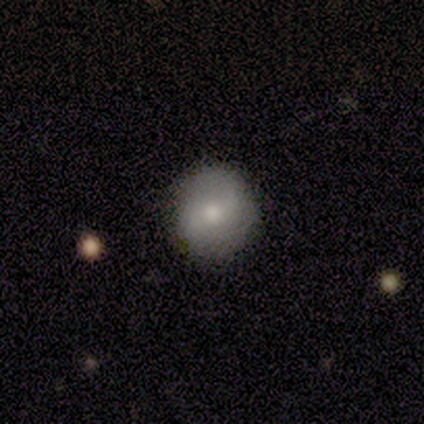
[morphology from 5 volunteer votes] Q: Smooth or featured?
A: featured or disk (60%); runner-up: smooth (40%)
Q: Edge-on disk?
A: no (100%)
Q: Bar?
A: strong (33%); tied with: weak (33%); no (33%)
Q: Spiral arms?
A: yes (67%); runner-up: no (33%)
Q: Spiral winding?
A: loose (100%)
Q: Spiral arm count?
A: 2 (50%); tied with: can't tell (50%)
Q: Bulge size?
A: large (67%); runner-up: moderate (33%)
Q: Merging?
A: none (80%); runner-up: minor disturbance (20%)